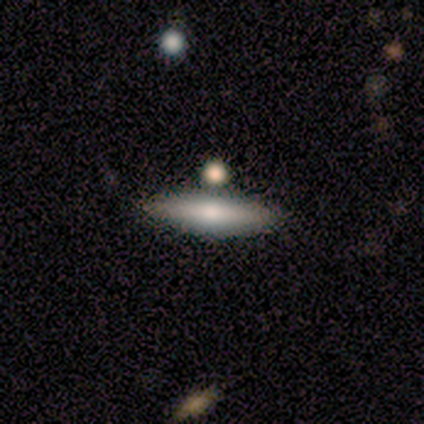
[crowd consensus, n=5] smooth 100%, featured or disk 0%, star or artifact 0%. Down the decision tree: how rounded — cigar-shaped (100%); merging — none (80%).